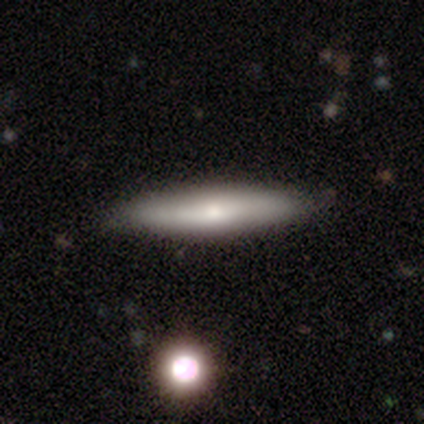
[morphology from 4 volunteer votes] This is possibly a smooth galaxy (50%, tied with featured or disk). How rounded: clearly cigar-shaped (100%). Merging: clearly none (100%).